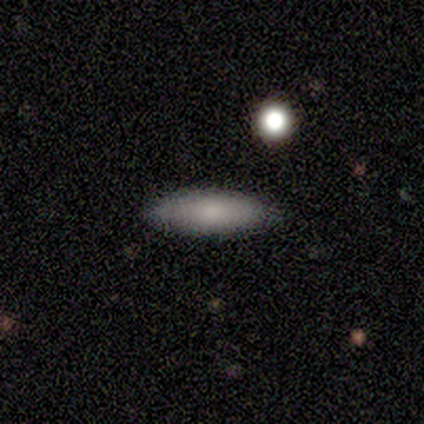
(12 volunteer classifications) Q: Smooth or featured?
A: smooth (83%); runner-up: featured or disk (17%)
Q: How rounded?
A: in between (60%); runner-up: cigar-shaped (40%)
Q: Merging?
A: none (83%); runner-up: minor disturbance (8%)